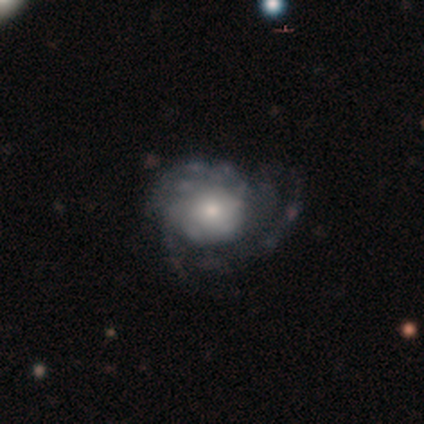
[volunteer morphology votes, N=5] smooth_or_featured: smooth (p=0.60) [alt: featured or disk p=0.40]
how_rounded: round (p=0.67) [alt: in between p=0.33]
merging: major disturbance (p=0.60) [alt: minor disturbance p=0.40]